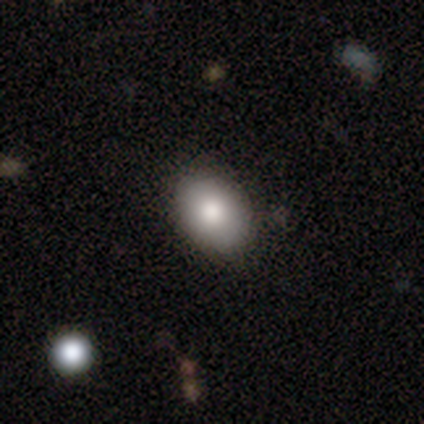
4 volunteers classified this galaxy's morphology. smooth 100%, featured or disk 0%, star or artifact 0%. Down the decision tree: how rounded — in between (100%); merging — none (50%).